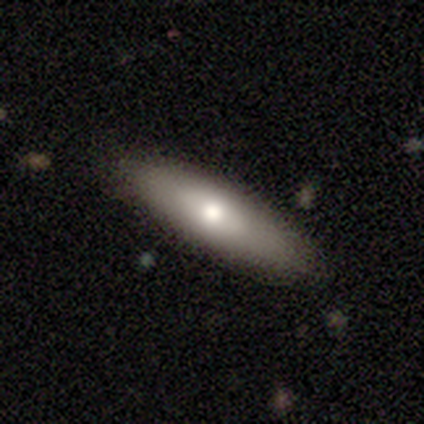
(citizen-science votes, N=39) Smooth or featured: smooth — 72% (featured or disk — 26%)
How rounded: in between — 57% (cigar-shaped — 43%)
Merging: none — 82% (minor disturbance — 16%)